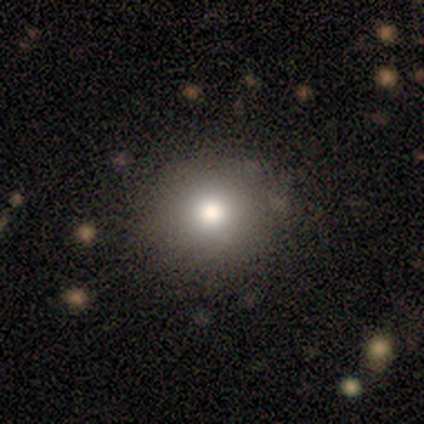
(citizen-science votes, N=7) Smooth or featured?
  - smooth: 86% *
  - star or artifact: 14%
  - featured or disk: 0%
How rounded?
  - round: 100% *
  - in between: 0%
  - cigar-shaped: 0%
Merging?
  - none: 100% *
  - minor disturbance: 0%
  - major disturbance: 0%
  - merger: 0%